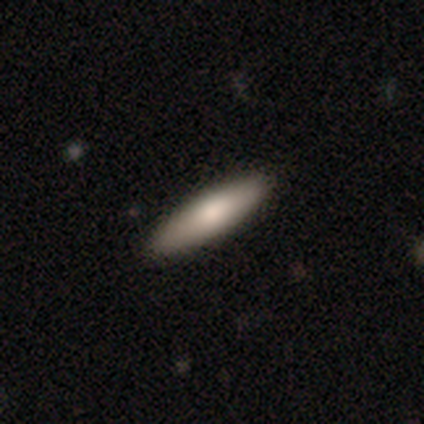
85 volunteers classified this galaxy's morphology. type=smooth (78%); roundness=cigar-shaped (76%); merging=none (88%).